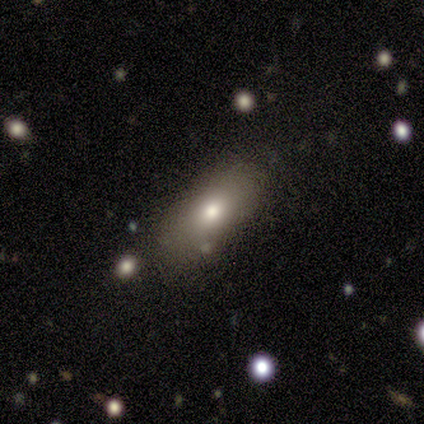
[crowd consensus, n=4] Overall: smooth (100%). How rounded: in between (50%, tied with cigar-shaped). Merging: none (100%).